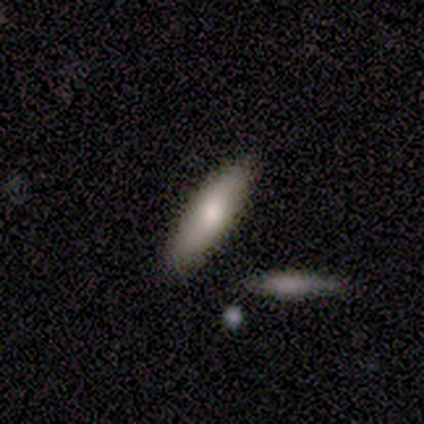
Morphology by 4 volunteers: Overall: smooth (75%). How rounded: in between (67%; cigar-shaped 33%). Merging: none (100%).